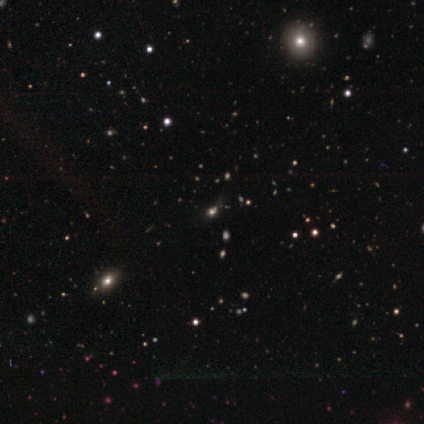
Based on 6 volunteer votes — Volunteers were most divided on "smooth or featured": star or artifact: 67%, smooth: 17%, featured or disk: 17%.